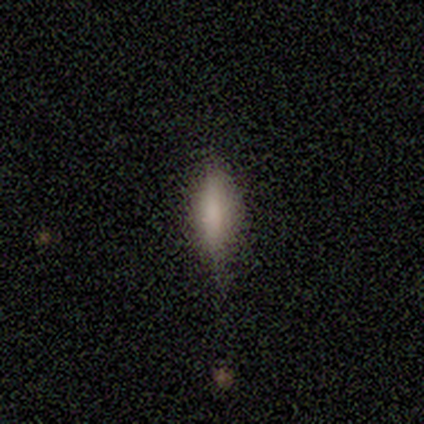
Smooth or featured? star or artifact (60%)